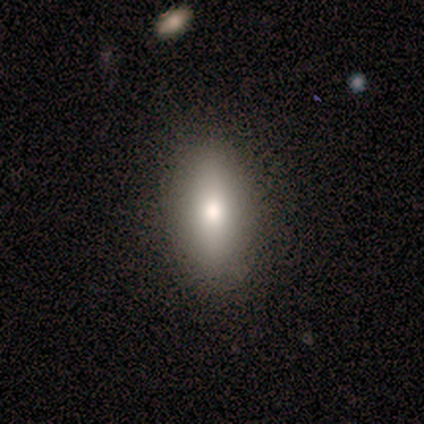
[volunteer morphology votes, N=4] smooth-or-featured: smooth: 50% | featured or disk: 25% | star or artifact: 25%
  how-rounded: in between: 50% (tied) | cigar-shaped: 50% (tied) | round: 0%
  merging: none: 67% | minor disturbance: 33% | major disturbance: 0% | merger: 0%